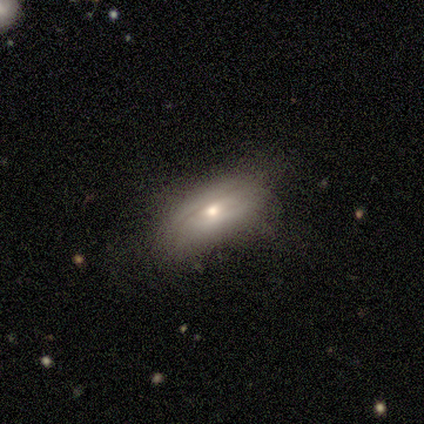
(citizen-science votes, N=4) Morphology: type=featured or disk (100%); edge-on=no (75%); bar=no (100%); spiral arms=no (100%); bulge=moderate (67%); merging=none (50%, tied with minor disturbance).